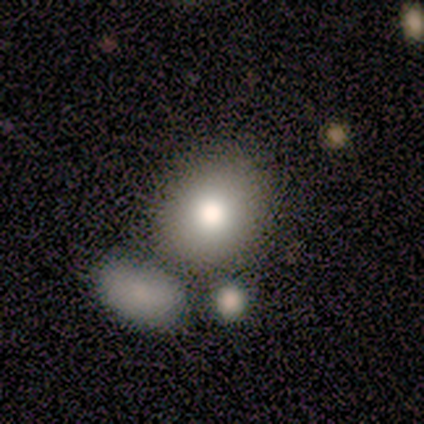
A smooth galaxy with no disk features (67%) that is round (50%, tied with in between).

Vote fractions:
- Smooth or featured? smooth: 67% / star or artifact: 33% / featured or disk: 0%
- How rounded? round: 50% (tied) / in between: 50% (tied) / cigar-shaped: 0%
- Merging? none: 75% / merger: 25% / minor disturbance: 0% / major disturbance: 0%